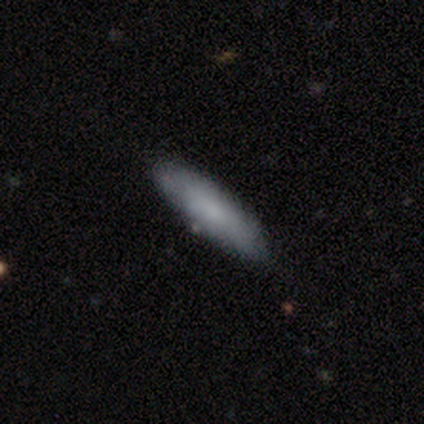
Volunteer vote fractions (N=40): This appears to be a smooth galaxy with no disk features (78%) that is cigar-shaped (55%). Merging: none (58%).